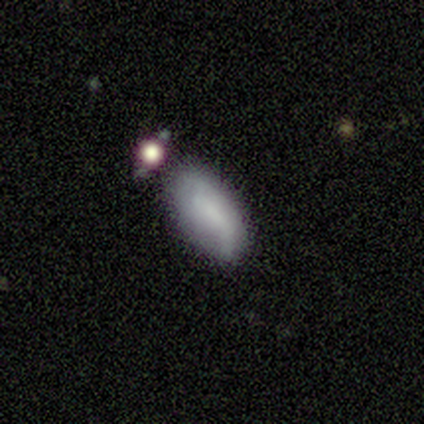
Smooth or featured?
  - smooth: 70% *
  - featured or disk: 30%
  - star or artifact: 0%
How rounded?
  - in between: 100% *
  - round: 0%
  - cigar-shaped: 0%
Merging?
  - none: 60% *
  - minor disturbance: 20%
  - merger: 20%
  - major disturbance: 0%